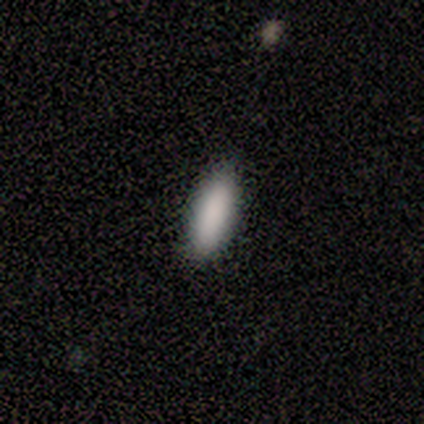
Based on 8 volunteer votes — This appears to be a smooth galaxy with no disk features (100%) that is cigar-shaped (62%). Merging: none (100%).